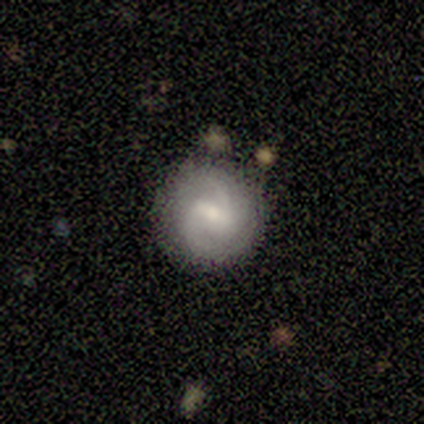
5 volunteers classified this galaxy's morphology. Smooth or featured: featured or disk — 60% (smooth — 20%)
Edge-on disk: no — 100%
Bar: weak — 67% (strong — 33%)
Spiral arms: yes — 100%
Spiral winding: medium — 67% (loose — 33%)
Spiral arm count: 2 — 100%
Bulge size: moderate — 100%
Merging: none — 50% (tied with minor disturbance — 50%)